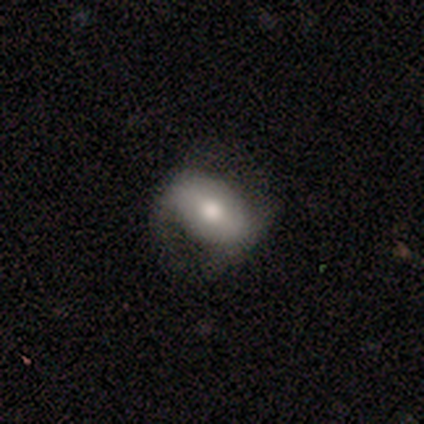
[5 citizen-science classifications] Volunteers were most divided on "smooth or featured": smooth: 80%, featured or disk: 20%, star or artifact: 0%. More confident: how rounded — in between (100%); merging — none (80%).